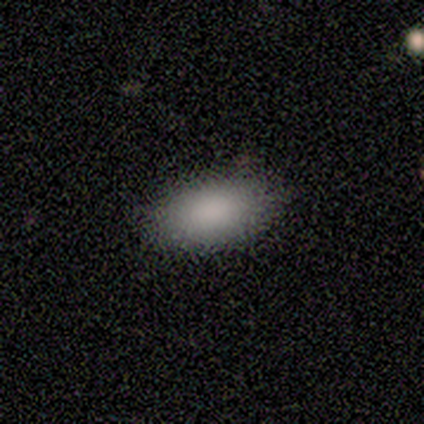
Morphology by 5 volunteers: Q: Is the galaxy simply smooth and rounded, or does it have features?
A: smooth — 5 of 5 (100%).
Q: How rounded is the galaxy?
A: in between — 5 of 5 (100%).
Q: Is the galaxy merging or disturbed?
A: none — 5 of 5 (100%).